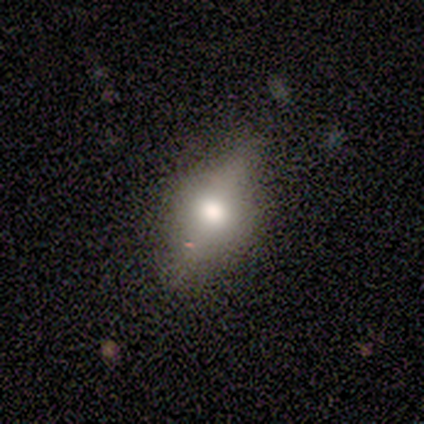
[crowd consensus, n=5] Volunteers were most divided on "how rounded": round: 60%, cigar-shaped: 40%, in between: 0%. More confident: smooth or featured — smooth (100%); merging — major disturbance (60%).